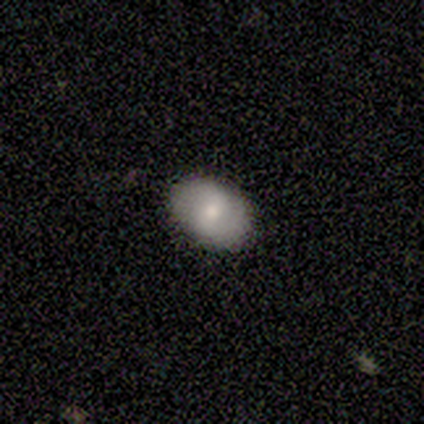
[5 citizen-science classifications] Volunteers were most divided on "smooth or featured": smooth: 60%, featured or disk: 40%, star or artifact: 0%. More confident: how rounded — in between (100%); merging — none (100%).